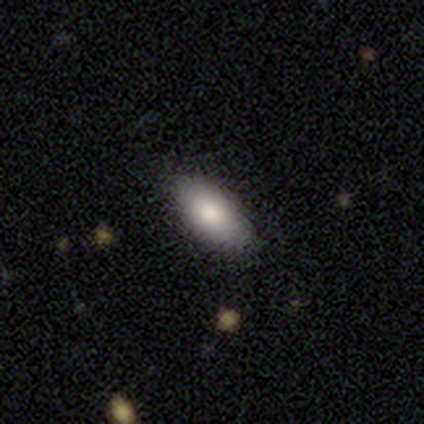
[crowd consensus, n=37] This is likely a smooth galaxy (78%). How rounded: clearly in between (93%). Merging: clearly none (86%).